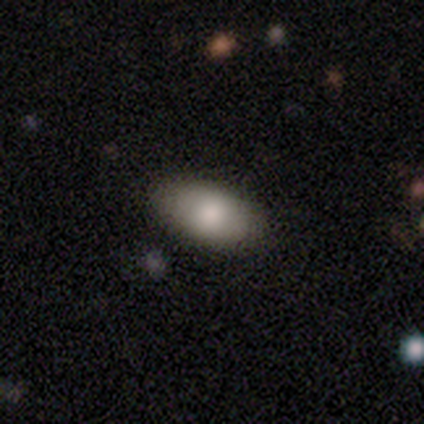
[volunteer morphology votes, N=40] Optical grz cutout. It shows a smooth galaxy with no disk features (92%) that is in between round and cigar-shaped (92%). Merging: none (92%).